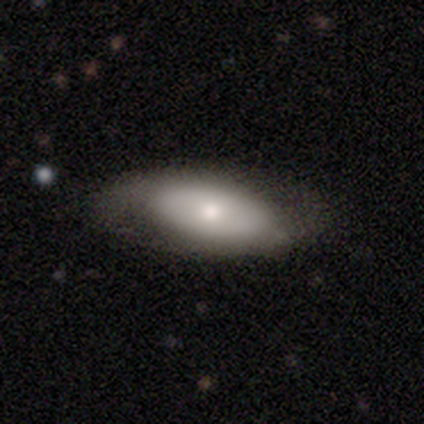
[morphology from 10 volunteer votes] Smooth or featured? 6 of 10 (60%) said featured or disk. Edge-on disk? 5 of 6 (83%) said no. Bar? 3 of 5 (60%) said no. Spiral arms? 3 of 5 (60%) said no. Bulge size? 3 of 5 (60%) said moderate. Merging? 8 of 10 (80%) said none.